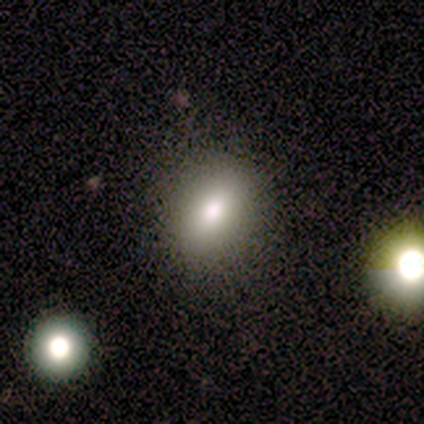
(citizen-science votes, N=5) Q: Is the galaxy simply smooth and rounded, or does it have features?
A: smooth — 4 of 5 (80%).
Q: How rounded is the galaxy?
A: in between — 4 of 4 (100%).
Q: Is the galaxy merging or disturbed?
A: none — 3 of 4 (75%).